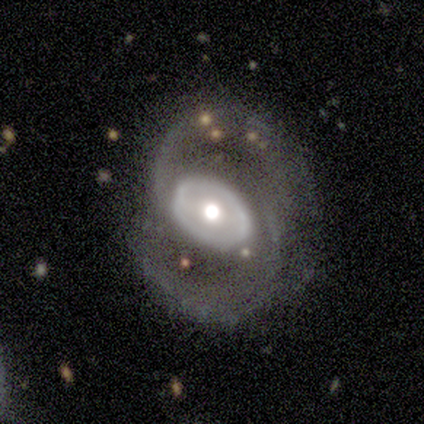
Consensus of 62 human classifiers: Morphology: type=featured or disk (92%); edge-on=no (96%); bar=no (51%); spiral arms=yes (85%); winding=medium (62%); arm count=2 (83%); bulge=moderate (58%); merging=none (53%).